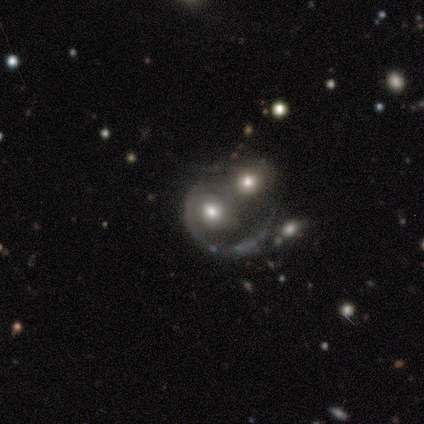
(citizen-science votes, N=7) A smooth galaxy with no disk features (57%) that is in between round and cigar-shaped (75%). Merging: merger (86%).